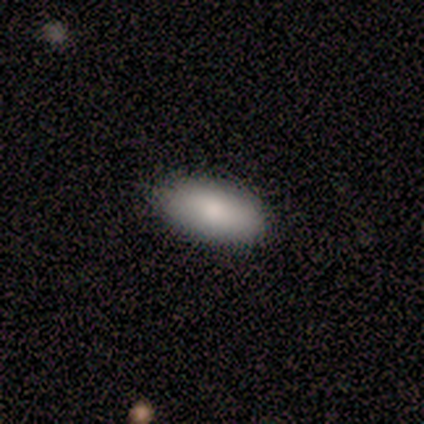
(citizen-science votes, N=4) Overall: smooth (50%, tied with featured or disk). How rounded: in between (50%, tied with cigar-shaped). Merging: none (100%).